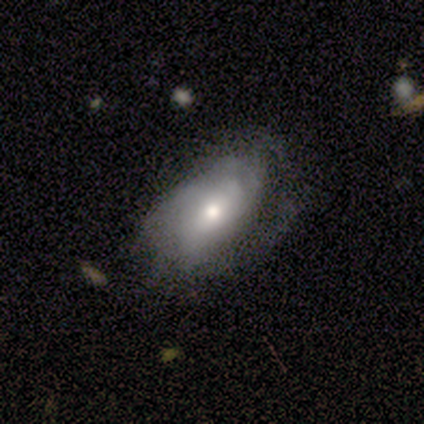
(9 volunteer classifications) Smooth or featured: smooth — 56% (featured or disk — 44%)
How rounded: in between — 100%
Merging: minor disturbance — 56% (none — 22%)